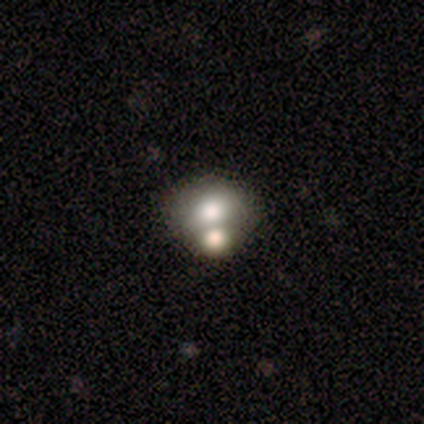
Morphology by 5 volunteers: Q: Smooth or featured?
A: smooth (60%); runner-up: star or artifact (40%)
Q: How rounded?
A: in between (67%); runner-up: round (33%)
Q: Merging?
A: merger (100%)